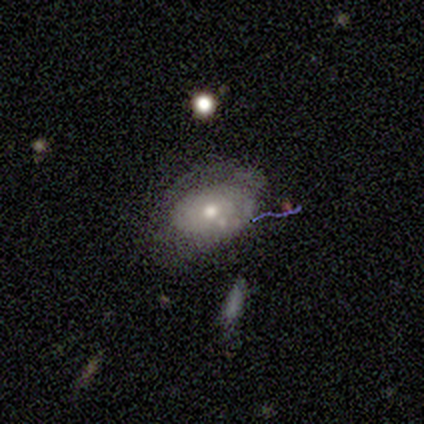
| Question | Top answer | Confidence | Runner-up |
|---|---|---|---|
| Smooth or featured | smooth | 40% | tied: featured or disk (40%) |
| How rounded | in between | 100% | — |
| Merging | none | 50% | minor disturbance (25%) |